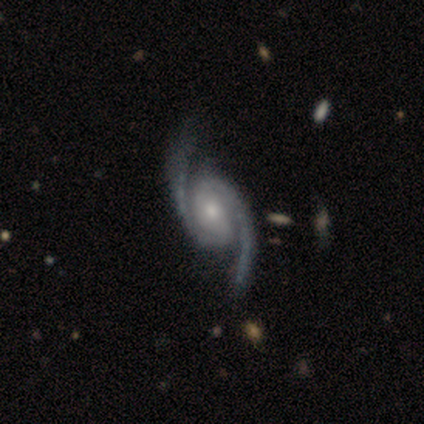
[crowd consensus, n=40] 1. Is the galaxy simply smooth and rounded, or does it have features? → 98% featured or disk, 2% star or artifact, 0% smooth.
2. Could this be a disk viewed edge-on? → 97% no, 3% yes.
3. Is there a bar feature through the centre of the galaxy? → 39% strong, 37% weak, 24% no.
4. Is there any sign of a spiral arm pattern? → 100% yes, 0% no.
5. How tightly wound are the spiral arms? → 39% loose, 37% medium, 24% tight.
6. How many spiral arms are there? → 97% 2, 3% 3, 0% 1, 0% 4, 0% more than 4, 0% can't tell.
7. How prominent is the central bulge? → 55% moderate, 32% small, 11% large, 3% dominant, 0% none.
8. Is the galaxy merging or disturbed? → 54% none, 8% minor disturbance, 0% major disturbance, 0% merger.